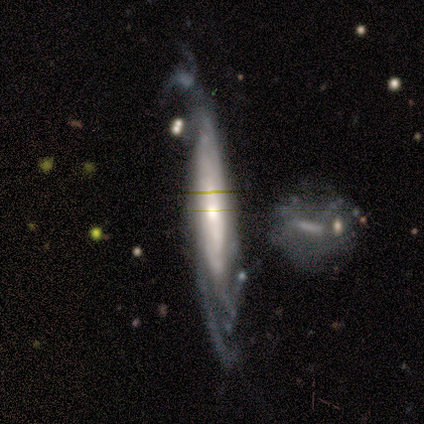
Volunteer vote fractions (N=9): featured or disk 89%, smooth 11%, star or artifact 0%. Down the decision tree: edge-on disk — yes (50%, tied with no); edge-on bulge — boxy (50%, tied with none); merging — minor disturbance (56%).